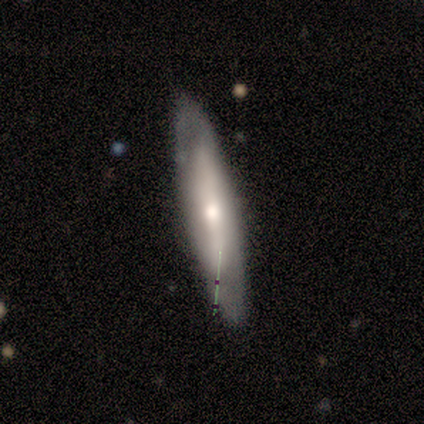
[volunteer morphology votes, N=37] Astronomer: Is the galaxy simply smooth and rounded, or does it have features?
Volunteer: featured or disk — 59%.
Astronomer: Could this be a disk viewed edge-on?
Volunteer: yes — 59% (runner-up: no, 41%).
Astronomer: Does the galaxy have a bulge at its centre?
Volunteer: rounded — 77%.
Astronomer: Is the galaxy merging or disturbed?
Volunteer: none — 79%.